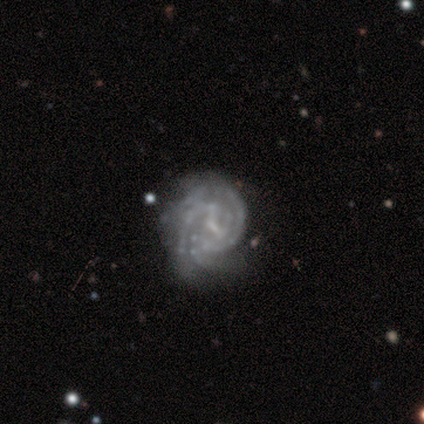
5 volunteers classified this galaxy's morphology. Q: Smooth or featured?
A: featured or disk (100%)
Q: Edge-on disk?
A: no (100%)
Q: Bar?
A: weak (80%); runner-up: no (20%)
Q: Spiral arms?
A: yes (100%)
Q: Spiral winding?
A: medium (60%); runner-up: tight (40%)
Q: Spiral arm count?
A: 3 (40%); tied with: can't tell (40%)
Q: Bulge size?
A: small (60%); runner-up: none (40%)
Q: Merging?
A: none (60%); runner-up: minor disturbance (20%)